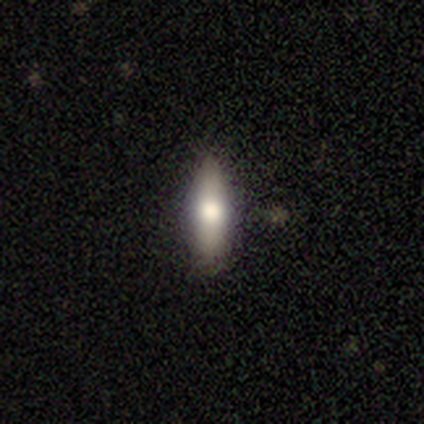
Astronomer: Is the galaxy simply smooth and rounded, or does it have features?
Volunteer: smooth — 60% (runner-up: featured or disk, 40%).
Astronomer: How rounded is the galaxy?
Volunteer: cigar-shaped — 100%.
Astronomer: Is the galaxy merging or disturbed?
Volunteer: none — 80%.